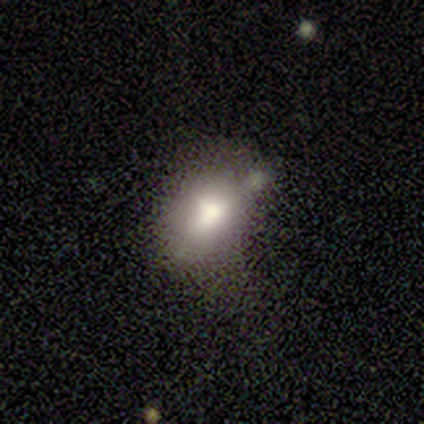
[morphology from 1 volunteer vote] A star or artifact, not a galaxy (100%).